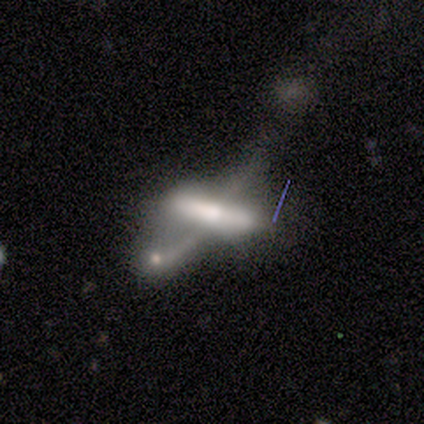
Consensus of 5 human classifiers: This is likely a smooth galaxy (60%). How rounded: likely cigar-shaped (67%). Merging: likely merger (75%).